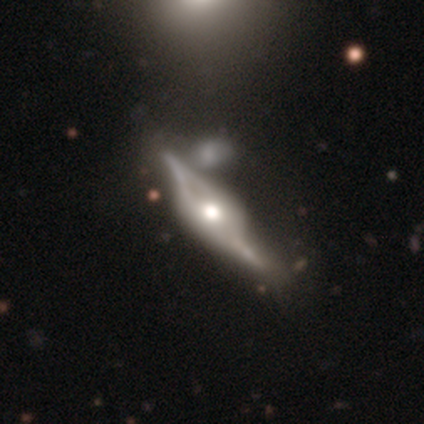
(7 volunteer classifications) This appears to be a featured or disk galaxy (86%) viewed edge-on (50%, tied with no) with a rounded central bulge (100%). Merging: merger (57%).